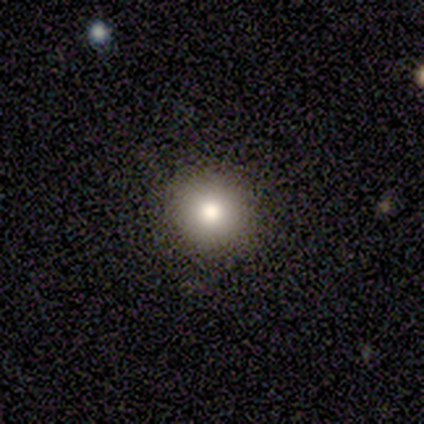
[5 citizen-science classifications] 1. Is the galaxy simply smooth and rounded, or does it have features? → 80% smooth, 20% star or artifact, 0% featured or disk.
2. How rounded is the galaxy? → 100% round, 0% in between, 0% cigar-shaped.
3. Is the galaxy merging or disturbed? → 100% none, 0% minor disturbance, 0% major disturbance, 0% merger.